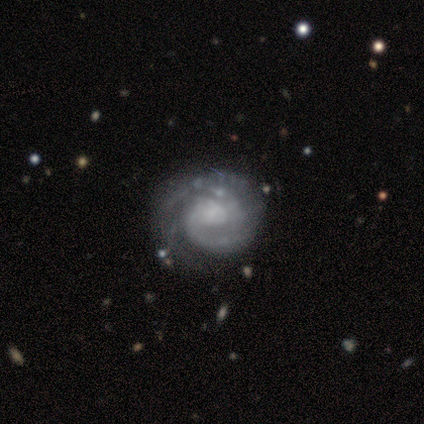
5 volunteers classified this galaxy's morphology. Smooth or featured? featured or disk (80%)
Edge-on disk? no (100%)
Bar? no (75%)
Spiral arms? yes (100%)
Spiral winding? medium (75%)
Spiral arm count? 3 (50%)
Bulge size? large (50%, tied with small)
Merging? none (100%)